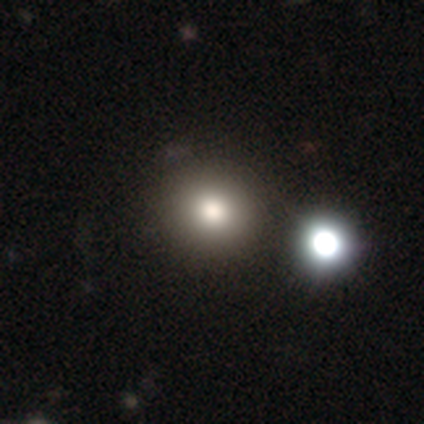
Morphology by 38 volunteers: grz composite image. It shows a smooth galaxy with no disk features (68%) that is round (100%). Merging: none (53%).